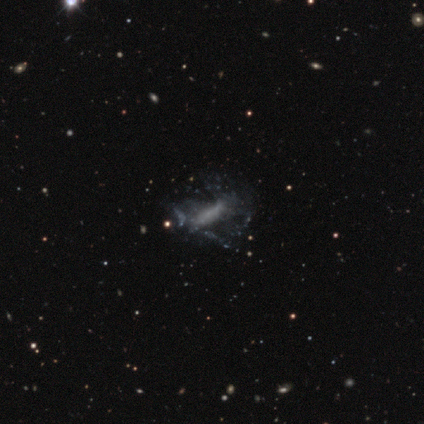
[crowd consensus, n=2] Smooth or featured? 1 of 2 (50%, tied with star or artifact) said featured or disk. Edge-on disk? 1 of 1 (100%) said no. Bar? 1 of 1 (100%) said no. Spiral arms? 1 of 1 (100%) said no. Bulge size? 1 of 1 (100%) said none. Merging? 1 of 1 (100%) said major disturbance.